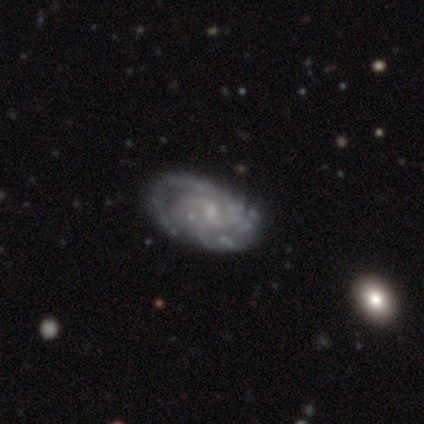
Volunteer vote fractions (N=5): Smooth or featured: featured or disk — 100%
Edge-on disk: no — 100%
Bar: weak — 60% (no — 40%)
Spiral arms: yes — 80% (no — 20%)
Spiral winding: tight — 50% (medium — 25%)
Spiral arm count: 2 — 100%
Bulge size: small — 40% (tied with none — 40%)
Merging: minor disturbance — 60% (none — 40%)